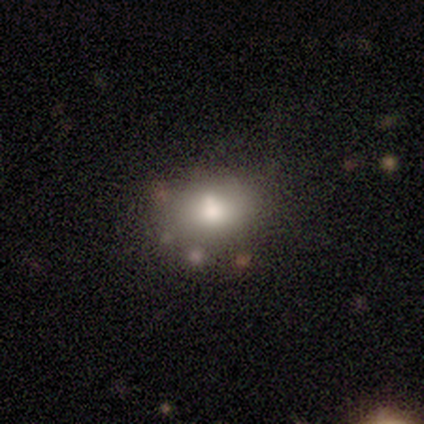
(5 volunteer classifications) Smooth or featured? 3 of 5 (60%) said smooth. How rounded? 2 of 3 (67%) said in between. Merging? 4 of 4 (100%) said none.